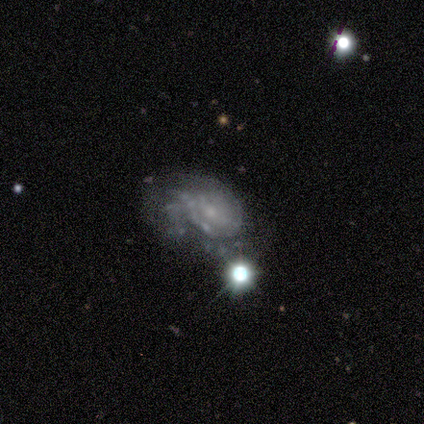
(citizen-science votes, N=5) Smooth or featured? featured or disk (60%)
Edge-on disk? no (67%)
Bar? weak (50%, tied with no)
Spiral arms? yes (100%)
Spiral winding? tight (50%, tied with medium)
Spiral arm count? 3 (50%, tied with can't tell)
Bulge size? moderate (50%, tied with small)
Merging? major disturbance (60%)